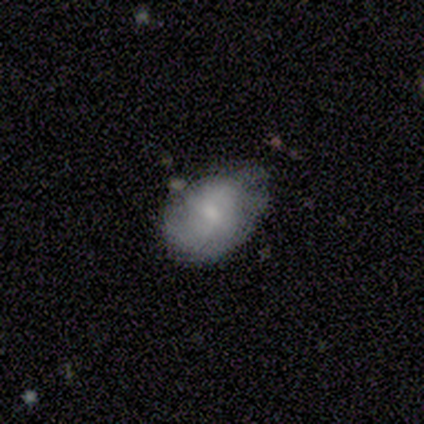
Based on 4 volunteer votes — Overall: smooth (75%). How rounded: in between (67%; round 33%). Merging: none (75%).